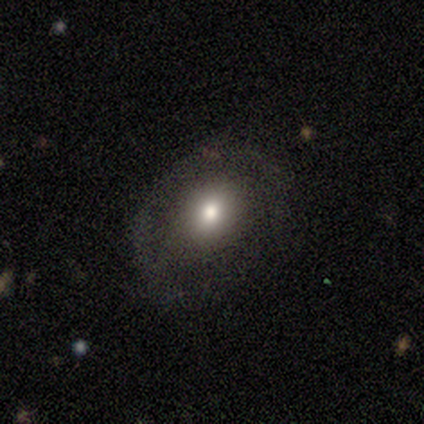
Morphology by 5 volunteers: This is clearly a smooth galaxy (100%). How rounded: likely in between (60%). Merging: clearly none (100%).